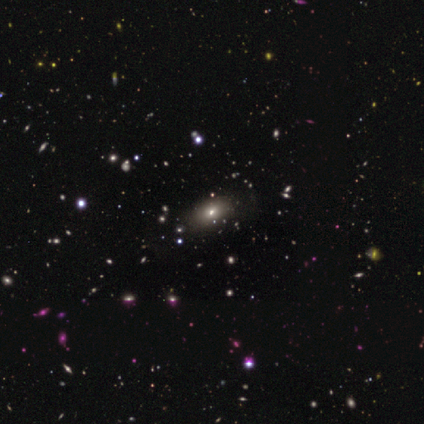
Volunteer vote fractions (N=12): Q: Smooth or featured?
A: smooth (67%); runner-up: star or artifact (33%)
Q: How rounded?
A: in between (88%); runner-up: round (12%)
Q: Merging?
A: none (88%); runner-up: minor disturbance (12%)